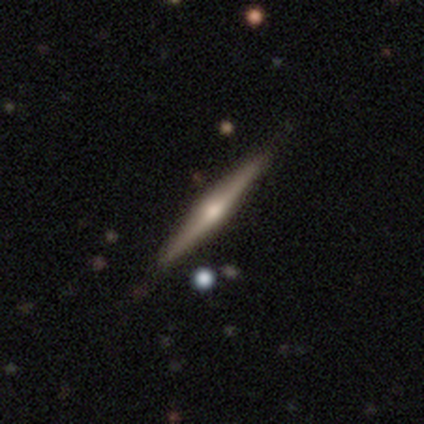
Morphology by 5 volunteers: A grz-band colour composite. It shows a featured or disk galaxy (80%) viewed edge-on (100%) with a rounded central bulge (100%). Merging: none (100%).